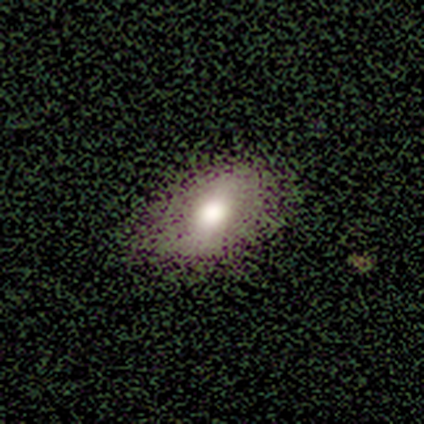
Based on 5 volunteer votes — smooth-or-featured: smooth: 60% | featured or disk: 40% | star or artifact: 0%
  how-rounded: in between: 100% | round: 0% | cigar-shaped: 0%
  merging: none: 100% | minor disturbance: 0% | major disturbance: 0% | merger: 0%